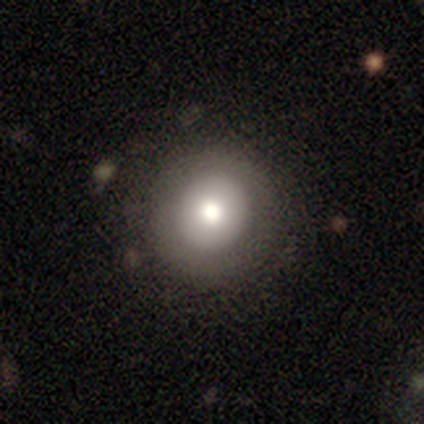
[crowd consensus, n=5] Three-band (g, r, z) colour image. It shows a smooth galaxy with no disk features (80%) that is round (100%). Merging: none (100%).